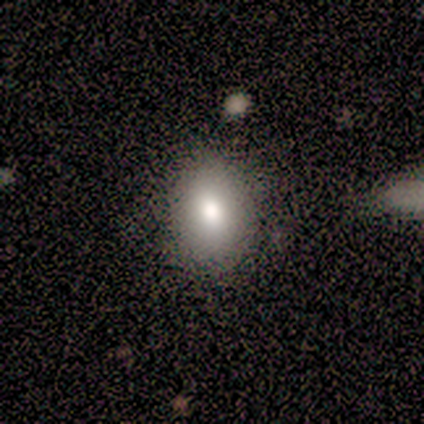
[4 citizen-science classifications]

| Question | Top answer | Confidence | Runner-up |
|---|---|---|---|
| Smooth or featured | smooth | 100% | — |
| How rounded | in between | 100% | — |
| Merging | none | 100% | — |